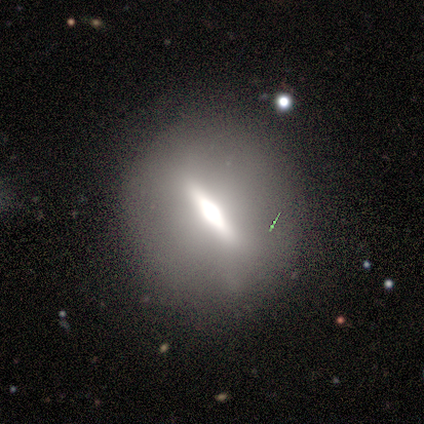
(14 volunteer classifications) smooth_or_featured: featured or disk (p=0.43) [alt: smooth p=0.29]
disk_edge_on: yes (p=0.50) [tied with: no p=0.50]
edge_on_bulge: rounded (p=0.67) [alt: boxy p=0.33]
merging: none (p=0.90) [alt: minor disturbance p=0.10]